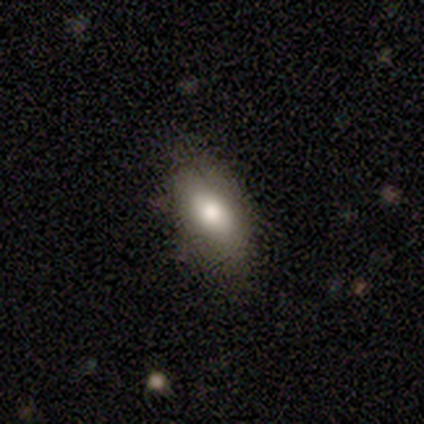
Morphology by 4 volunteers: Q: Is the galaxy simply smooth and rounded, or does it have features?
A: smooth — 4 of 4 (100%).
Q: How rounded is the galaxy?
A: in between — 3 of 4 (75%).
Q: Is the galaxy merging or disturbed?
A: none — 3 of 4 (75%).